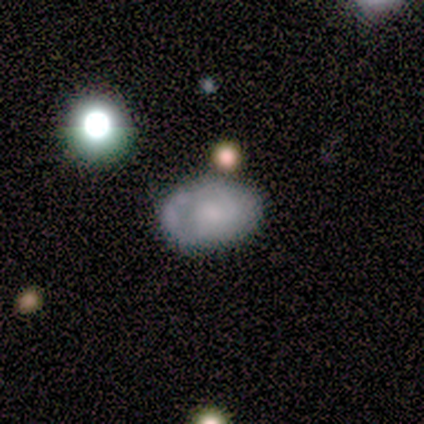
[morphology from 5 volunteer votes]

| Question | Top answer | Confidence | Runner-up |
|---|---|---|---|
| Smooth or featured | featured or disk | 40% | tied: star or artifact (40%) |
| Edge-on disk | no | 100% | — |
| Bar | no | 100% | — |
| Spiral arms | no | 100% | — |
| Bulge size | large | 50% | tied: moderate (50%) |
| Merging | minor disturbance | 67% | none (33%) |